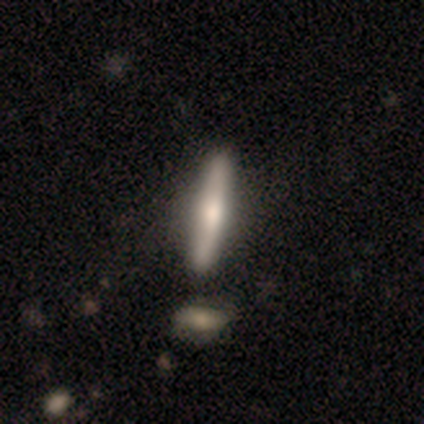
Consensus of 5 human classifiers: This appears to be a featured or disk galaxy (80%) viewed edge-on (100%) with a rounded central bulge (100%). Merging: none (100%).